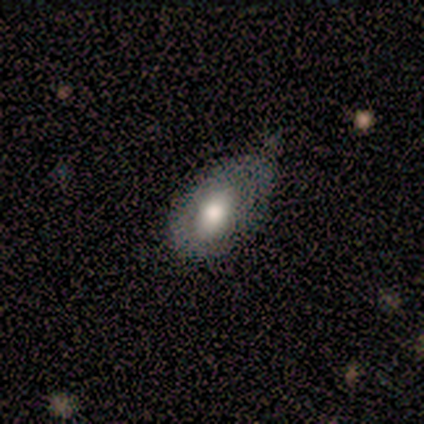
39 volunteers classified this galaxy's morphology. Smooth or featured? smooth (56%)
How rounded? in between (91%)
Merging? none (42%, tied with minor disturbance)